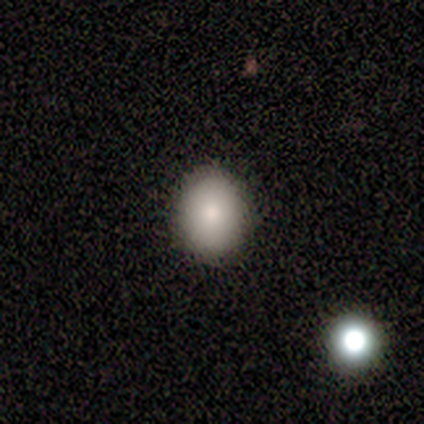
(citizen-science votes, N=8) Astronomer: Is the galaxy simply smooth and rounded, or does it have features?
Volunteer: smooth — 100%.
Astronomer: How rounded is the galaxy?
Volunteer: in between — 62%.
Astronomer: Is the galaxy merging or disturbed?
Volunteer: none — 88%.